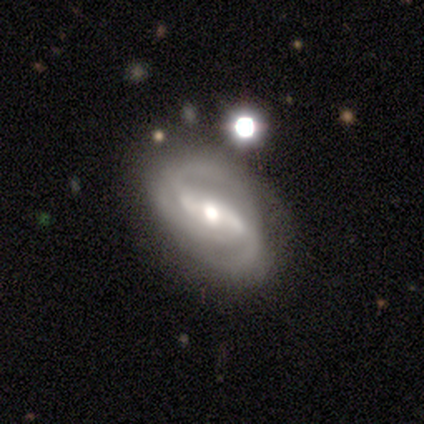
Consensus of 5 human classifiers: smooth_or_featured: featured or disk (p=1.00)
disk_edge_on: no (p=1.00)
bar: strong (p=0.40) [tied with: weak p=0.40]
has_spiral_arms: yes (p=1.00)
spiral_winding: medium (p=0.60) [alt: tight p=0.40]
spiral_arm_count: 2 (p=0.80) [alt: 3 p=0.20]
bulge_size: moderate (p=1.00)
merging: none (p=0.60) [alt: minor disturbance p=0.40]